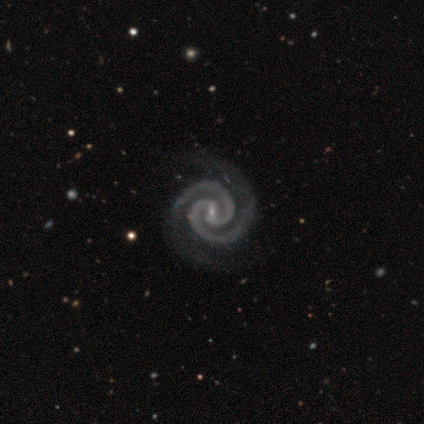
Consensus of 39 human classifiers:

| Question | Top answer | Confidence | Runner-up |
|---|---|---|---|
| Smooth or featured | featured or disk | 97% | smooth (3%) |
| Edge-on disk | no | 100% | — |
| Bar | weak | 55% | no (24%) |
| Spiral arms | yes | 100% | — |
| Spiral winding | tight | 84% | medium (13%) |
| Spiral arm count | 2 | 100% | — |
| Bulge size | small | 97% | moderate (3%) |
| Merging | none | 51% | minor disturbance (5%) |